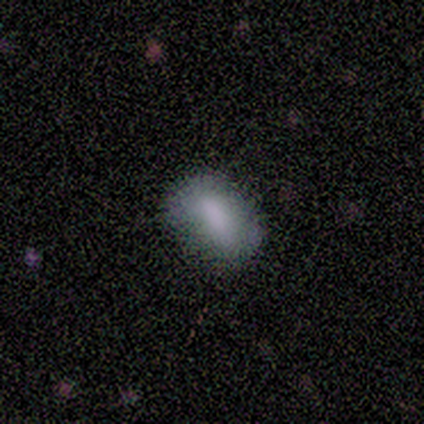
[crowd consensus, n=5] smooth 100%, featured or disk 0%, star or artifact 0%. Down the decision tree: how rounded — in between (80%); merging — none (100%).